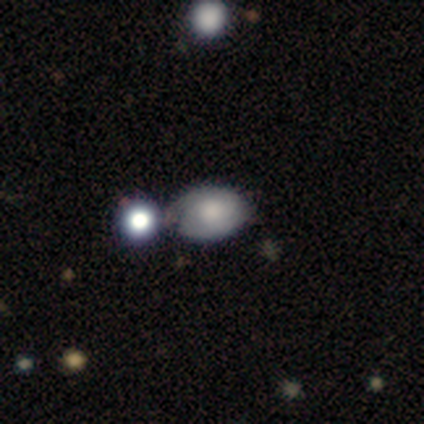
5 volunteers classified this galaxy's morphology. Q: Smooth or featured?
A: smooth (60%); runner-up: featured or disk (40%)
Q: How rounded?
A: in between (100%)
Q: Merging?
A: none (60%); runner-up: minor disturbance (20%)